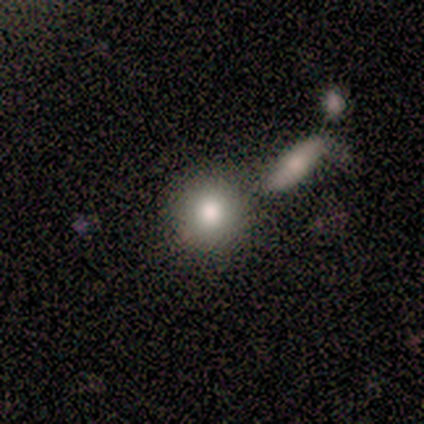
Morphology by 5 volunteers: Smooth or featured? smooth (100%)
How rounded? round (100%)
Merging? none (80%)